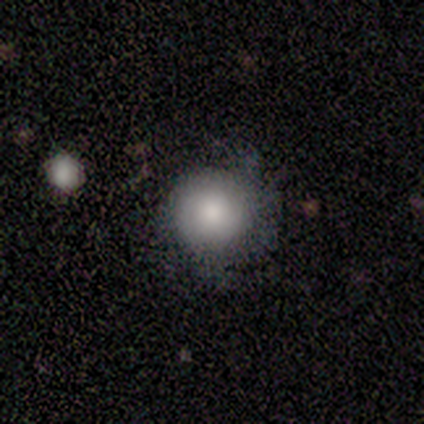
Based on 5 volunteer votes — This is clearly a smooth galaxy (80%). How rounded: clearly round (100%). Merging: clearly none (80%).